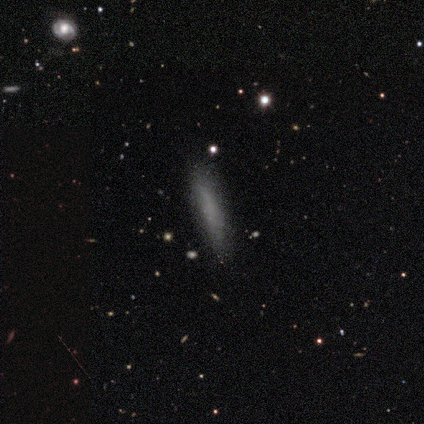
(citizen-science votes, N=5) smooth_or_featured: smooth (p=0.80) [alt: featured or disk p=0.20]
how_rounded: cigar-shaped (p=0.75) [alt: in between p=0.25]
merging: none (p=1.00)